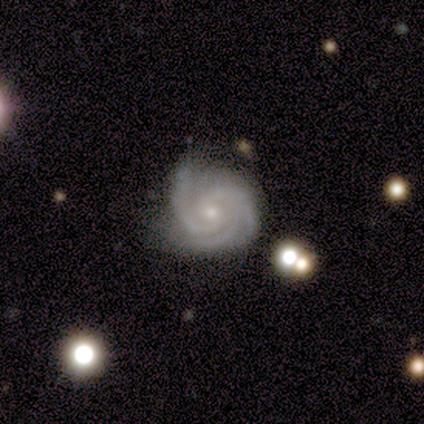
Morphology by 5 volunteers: Smooth or featured? 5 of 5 (100%) said featured or disk. Edge-on disk? 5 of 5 (100%) said no. Bar? 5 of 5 (100%) said no. Spiral arms? 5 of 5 (100%) said yes. Spiral winding? 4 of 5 (80%) said tight. Spiral arm count? 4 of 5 (80%) said 3. Bulge size? 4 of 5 (80%) said small. Merging? 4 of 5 (80%) said none.